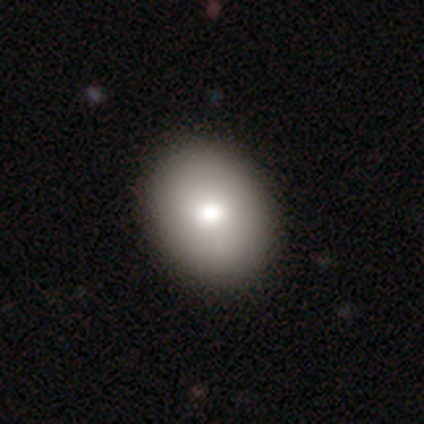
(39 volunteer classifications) Overall: smooth (77%). How rounded: in between (60%; round 40%). Merging: none (64%).